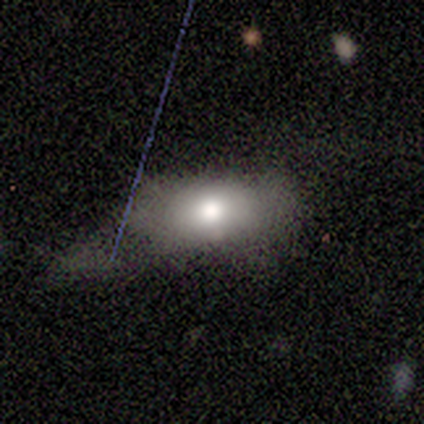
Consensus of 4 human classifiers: Smooth or featured? smooth (100%)
How rounded? in between (100%)
Merging? none (50%, tied with major disturbance)